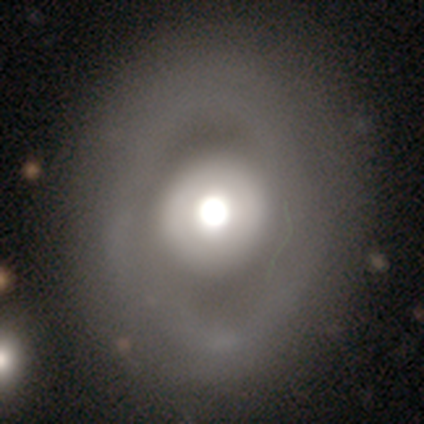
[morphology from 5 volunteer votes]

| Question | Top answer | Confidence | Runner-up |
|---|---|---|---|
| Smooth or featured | featured or disk | 60% | smooth (40%) |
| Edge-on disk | no | 100% | — |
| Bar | no | 100% | — |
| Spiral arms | no | 67% | yes (33%) |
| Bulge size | dominant | 33% | tied: large (33%), moderate (33%) |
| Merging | none | 60% | minor disturbance (20%) |